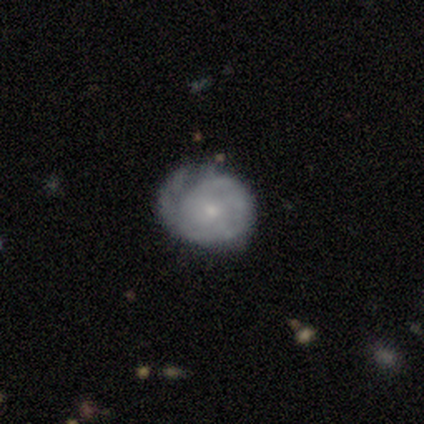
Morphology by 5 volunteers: Smooth or featured? 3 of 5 (60%) said featured or disk. Edge-on disk? 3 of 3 (100%) said no. Bar? 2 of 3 (67%) said no. Spiral arms? 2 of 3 (67%) said yes. Spiral winding? 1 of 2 (50%, tied with loose) said tight. Spiral arm count? 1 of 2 (50%, tied with can't tell) said 1. Bulge size? 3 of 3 (100%) said small. Merging? 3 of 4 (75%) said major disturbance.